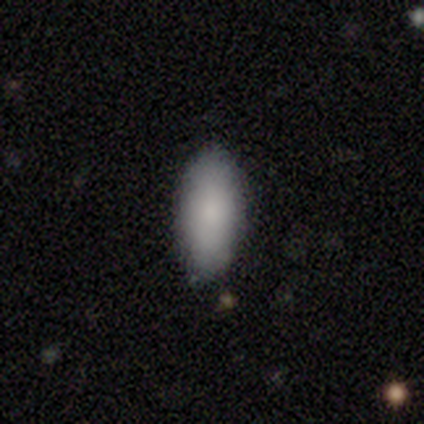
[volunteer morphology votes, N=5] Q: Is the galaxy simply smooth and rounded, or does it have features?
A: smooth — 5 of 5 (100%).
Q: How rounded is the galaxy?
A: in between — 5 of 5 (100%).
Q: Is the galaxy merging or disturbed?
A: none — 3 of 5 (60%).